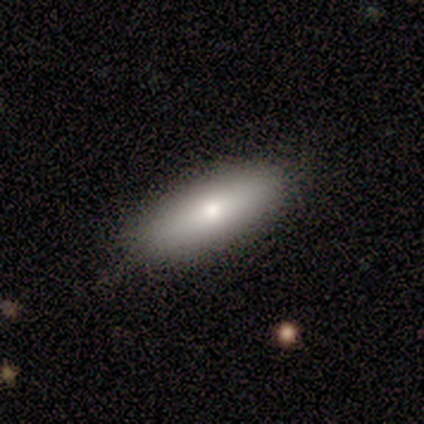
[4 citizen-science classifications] This appears to be a smooth galaxy with no disk features (75%) that is in between round and cigar-shaped (67%). Merging: none (100%).